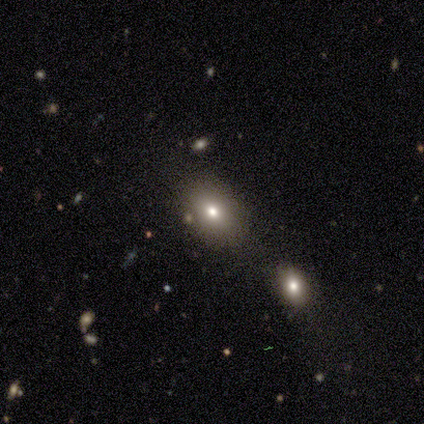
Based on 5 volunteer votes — Volunteers were most divided on "merging": none: 75%, minor disturbance: 25%, major disturbance: 0%, merger: 0%. More confident: how rounded — in between (100%); smooth or featured — smooth (80%).